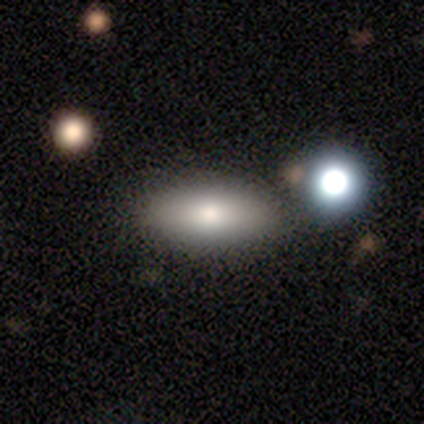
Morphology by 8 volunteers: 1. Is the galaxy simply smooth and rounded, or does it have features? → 100% smooth, 0% featured or disk, 0% star or artifact.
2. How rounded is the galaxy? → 75% in between, 12% round, 12% cigar-shaped.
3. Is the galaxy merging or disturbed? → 88% none, 12% minor disturbance, 0% major disturbance, 0% merger.